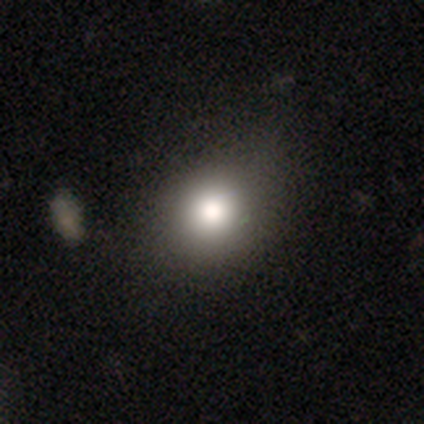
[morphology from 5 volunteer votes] A smooth galaxy with no disk features (80%) that is round (75%).

Vote fractions:
- Smooth or featured? smooth: 80% / featured or disk: 20% / star or artifact: 0%
- How rounded? round: 75% / in between: 25% / cigar-shaped: 0%
- Merging? none: 40% (tied) / minor disturbance: 40% (tied) / major disturbance: 20% / merger: 0%